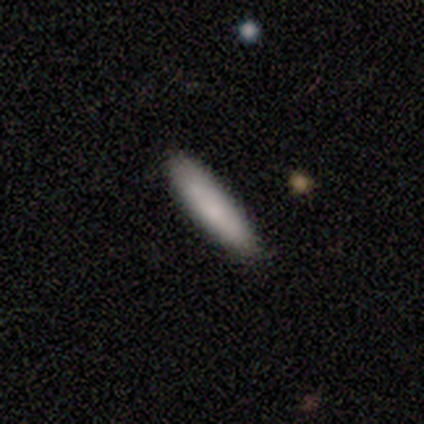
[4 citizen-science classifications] This appears to be a smooth galaxy with no disk features (100%) that is cigar-shaped (100%). Merging: none (100%).